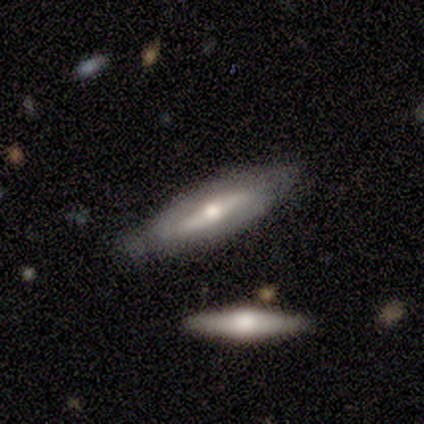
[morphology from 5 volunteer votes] A featured or disk galaxy (80%) viewed edge-on (75%) with a rounded central bulge (67%).

Vote fractions:
- Smooth or featured? featured or disk: 80% / smooth: 20% / star or artifact: 0%
- Edge-on disk? yes: 75% / no: 25%
- Edge-on bulge? rounded: 67% / boxy: 33% / none: 0%
- Merging? none: 80% / merger: 20% / minor disturbance: 0% / major disturbance: 0%